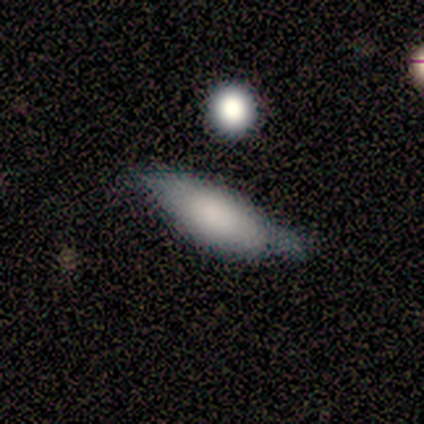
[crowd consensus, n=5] A smooth galaxy with no disk features (80%) that is in between round and cigar-shaped (75%).

Vote fractions:
- Smooth or featured? smooth: 80% / featured or disk: 20% / star or artifact: 0%
- How rounded? in between: 75% / cigar-shaped: 25% / round: 0%
- Merging? none: 100% / minor disturbance: 0% / major disturbance: 0% / merger: 0%